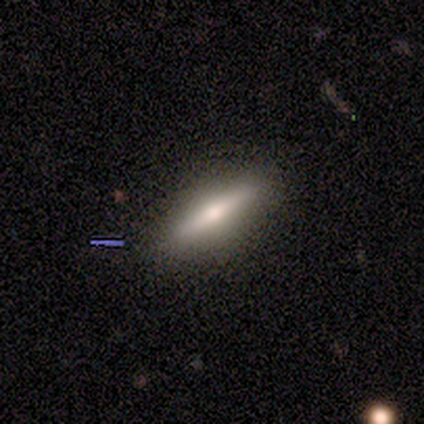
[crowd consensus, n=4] Smooth or featured?
  - featured or disk: 50% *
  - smooth: 25%
  - star or artifact: 25%
Edge-on disk?
  - yes: 100% *
  - no: 0%
Edge-on bulge?
  - rounded: 100% *
  - boxy: 0%
  - none: 0%
Merging?
  - none: 67% *
  - minor disturbance: 33%
  - major disturbance: 0%
  - merger: 0%